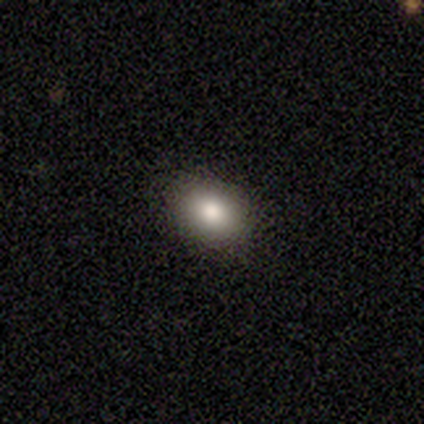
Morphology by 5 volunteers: A smooth galaxy with no disk features (100%) that is in between round and cigar-shaped (80%). Merging: none (100%).